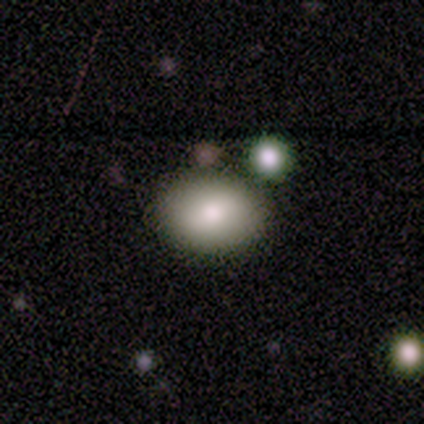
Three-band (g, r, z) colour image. It shows a smooth galaxy with no disk features (100%) that is in between round and cigar-shaped (80%). Merging: none (80%).